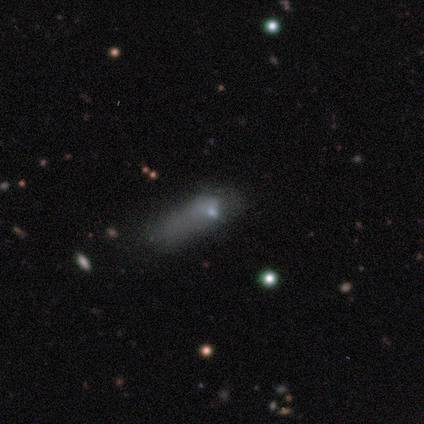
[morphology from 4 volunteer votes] Overall: star or artifact (75%).